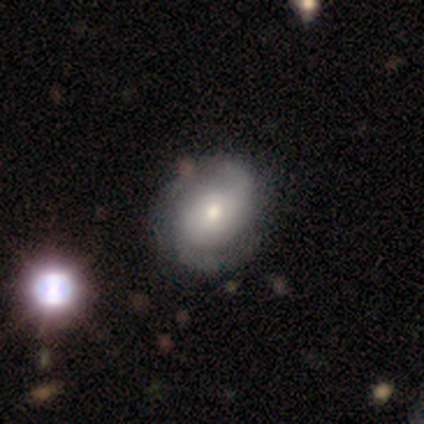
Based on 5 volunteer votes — Q: Smooth or featured?
A: featured or disk (100%)
Q: Edge-on disk?
A: no (100%)
Q: Bar?
A: no (80%); runner-up: weak (20%)
Q: Spiral arms?
A: yes (100%)
Q: Spiral winding?
A: medium (60%); runner-up: tight (20%)
Q: Spiral arm count?
A: 2 (80%); runner-up: can't tell (20%)
Q: Bulge size?
A: moderate (80%); runner-up: small (20%)
Q: Merging?
A: none (80%); runner-up: minor disturbance (20%)